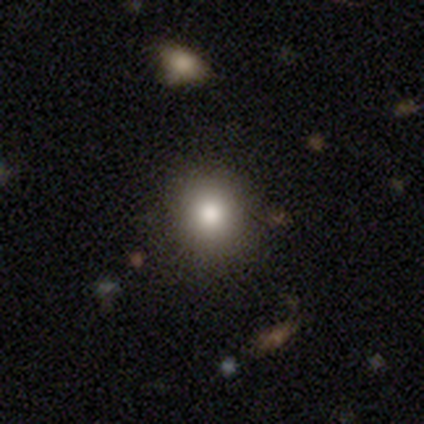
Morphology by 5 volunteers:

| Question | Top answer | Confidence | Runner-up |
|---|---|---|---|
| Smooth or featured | smooth | 100% | — |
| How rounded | round | 100% | — |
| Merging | none | 80% | minor disturbance (20%) |